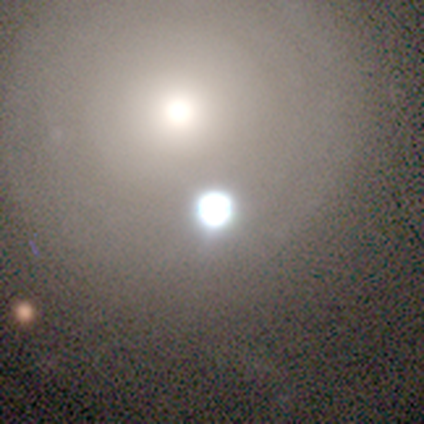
Volunteers were most divided on "smooth or featured": smooth: 60%, star or artifact: 40%, featured or disk: 0%. More confident: how rounded — round (100%); merging — none (67%).